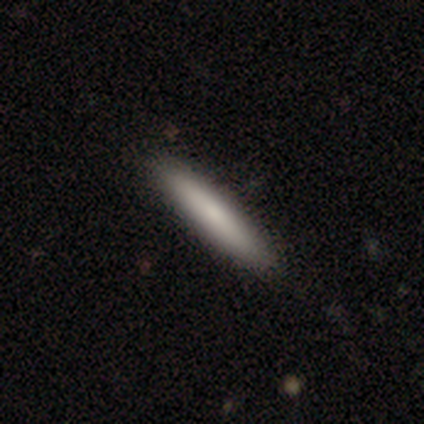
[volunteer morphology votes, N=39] Volunteers were most divided on "merging": none: 50%, minor disturbance: 3%, merger: 3%, major disturbance: 0%. More confident: how rounded — cigar-shaped (97%); smooth or featured — smooth (77%).